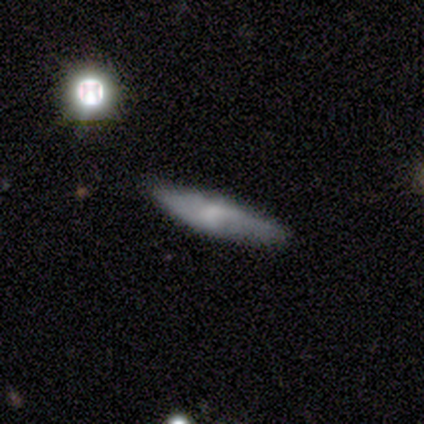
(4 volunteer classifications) Q: Smooth or featured?
A: smooth (75%); runner-up: featured or disk (25%)
Q: How rounded?
A: cigar-shaped (100%)
Q: Merging?
A: none (50%); tied with: minor disturbance (50%)